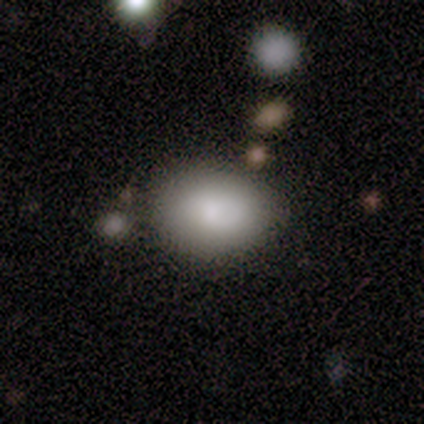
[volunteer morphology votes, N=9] smooth_or_featured: smooth (p=0.89) [alt: featured or disk p=0.11]
how_rounded: in between (p=0.75) [alt: round p=0.25]
merging: none (p=0.78) [alt: minor disturbance p=0.22]